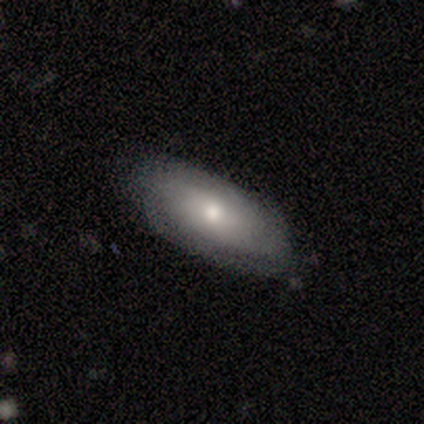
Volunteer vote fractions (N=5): smooth 60%, featured or disk 40%, star or artifact 0%. Down the decision tree: how rounded — in between (100%); merging — none (100%).